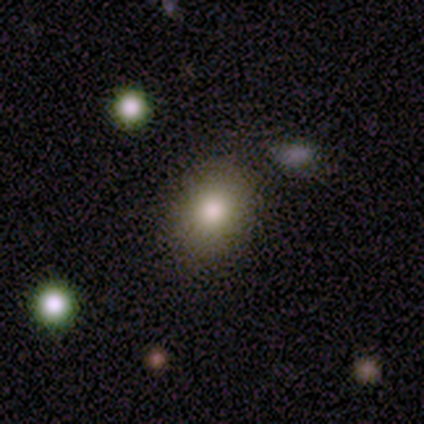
smooth-or-featured: smooth: 60% | star or artifact: 40% | featured or disk: 0%
  how-rounded: in between: 100% | round: 0% | cigar-shaped: 0%
  merging: none: 67% | minor disturbance: 33% | major disturbance: 0% | merger: 0%